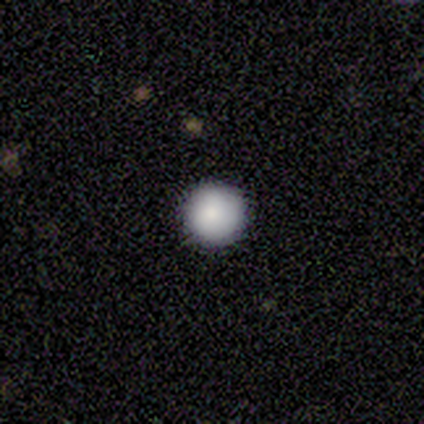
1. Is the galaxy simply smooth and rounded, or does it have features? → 75% smooth, 25% star or artifact, 0% featured or disk.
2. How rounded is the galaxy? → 100% round, 0% in between, 0% cigar-shaped.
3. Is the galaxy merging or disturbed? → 100% none, 0% minor disturbance, 0% major disturbance, 0% merger.